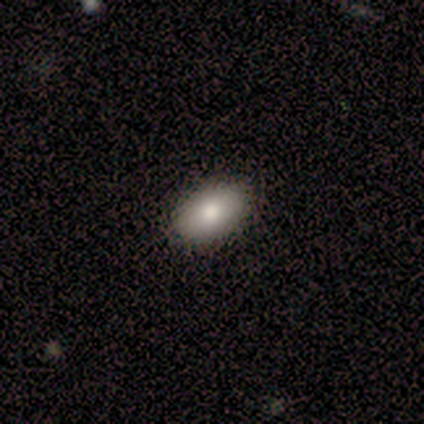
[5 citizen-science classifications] smooth 100%, featured or disk 0%, star or artifact 0%. Down the decision tree: how rounded — in between (100%); merging — none (100%).